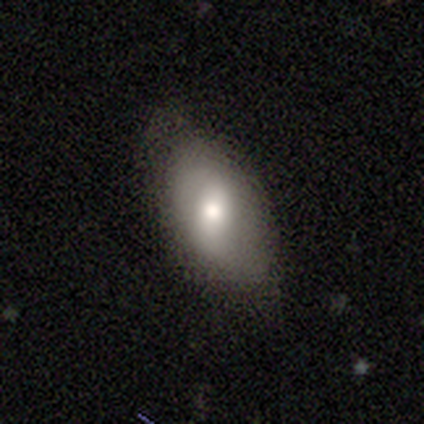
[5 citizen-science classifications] smooth-or-featured: featured or disk: 60% | smooth: 20% | star or artifact: 20%
  disk-edge-on: no: 67% | yes: 33%
    bar: strong: 50% (tied) | weak: 50% (tied) | no: 0%
    has-spiral-arms: yes: 50% (tied) | no: 50% (tied)
      spiral-winding: loose: 100% | tight: 0% | medium: 0%
      spiral-arm-count: 2: 100% | 1: 0% | 3: 0% | 4: 0% | more than 4: 0% | can't tell: 0%
    bulge-size: large: 50% (tied) | moderate: 50% (tied) | dominant: 0% | small: 0% | none: 0%
  merging: none: 75% | minor disturbance: 25% | major disturbance: 0% | merger: 0%